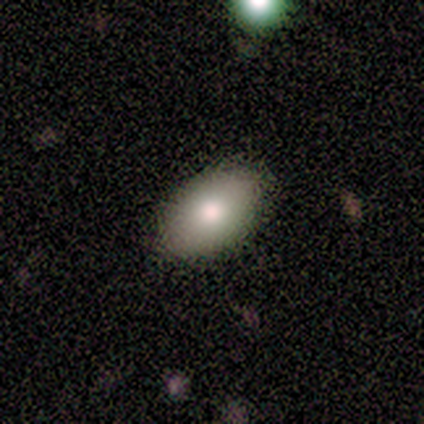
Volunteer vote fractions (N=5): A smooth galaxy with no disk features (80%) that is in between round and cigar-shaped (100%). Merging: none (100%).